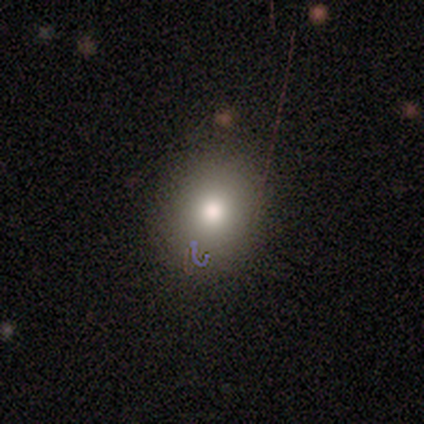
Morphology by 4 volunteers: Smooth or featured: smooth — 75% (star or artifact — 25%)
How rounded: round — 67% (in between — 33%)
Merging: none — 67% (merger — 33%)